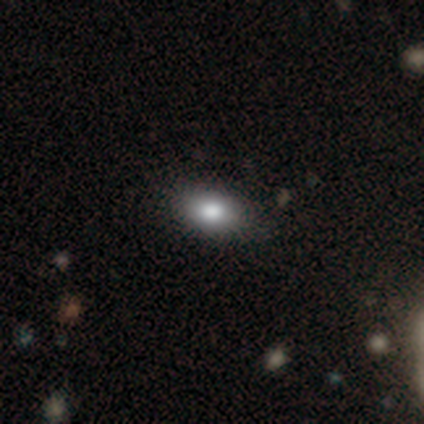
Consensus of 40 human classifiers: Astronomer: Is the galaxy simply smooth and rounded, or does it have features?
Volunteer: smooth — 75%.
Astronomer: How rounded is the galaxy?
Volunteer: in between — 83%.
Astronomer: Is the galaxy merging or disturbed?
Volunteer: none — 67%.